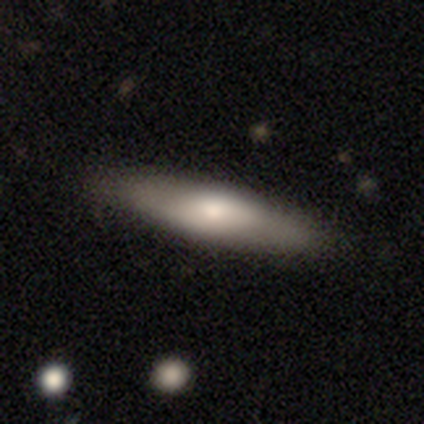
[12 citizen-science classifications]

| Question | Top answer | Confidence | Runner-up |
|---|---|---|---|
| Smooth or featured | featured or disk | 50% | smooth (42%) |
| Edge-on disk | no | 67% | yes (33%) |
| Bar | no | 75% | weak (25%) |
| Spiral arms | no | 100% | — |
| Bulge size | moderate | 75% | dominant (25%) |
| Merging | none | 91% | minor disturbance (9%) |